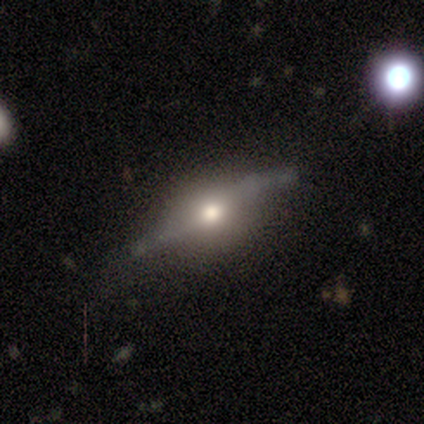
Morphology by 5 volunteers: A featured or disk galaxy (60%) viewed edge-on (100%) with a rounded central bulge (67%).

Vote fractions:
- Smooth or featured? featured or disk: 60% / smooth: 40% / star or artifact: 0%
- Edge-on disk? yes: 100% / no: 0%
- Edge-on bulge? rounded: 67% / boxy: 33% / none: 0%
- Merging? none: 100% / minor disturbance: 0% / major disturbance: 0% / merger: 0%